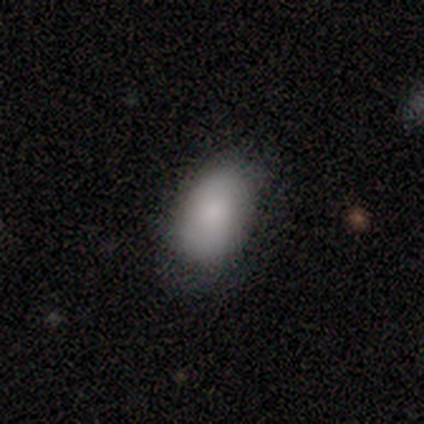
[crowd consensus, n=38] Volunteers were most divided on "merging": none: 73%, minor disturbance: 16%, major disturbance: 11%, merger: 0%. More confident: how rounded — in between (90%); smooth or featured — smooth (82%).